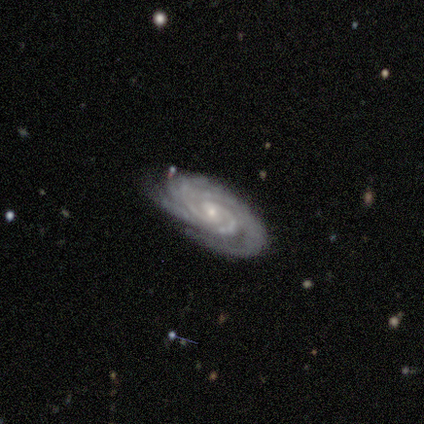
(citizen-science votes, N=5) smooth_or_featured: featured or disk (p=1.00)
disk_edge_on: no (p=1.00)
bar: no (p=0.60) [alt: weak p=0.40]
has_spiral_arms: yes (p=1.00)
spiral_winding: tight (p=0.80) [alt: medium p=0.20]
spiral_arm_count: 2 (p=0.40) [alt: 3 p=0.20]
bulge_size: small (p=1.00)
merging: none (p=0.80) [alt: minor disturbance p=0.20]